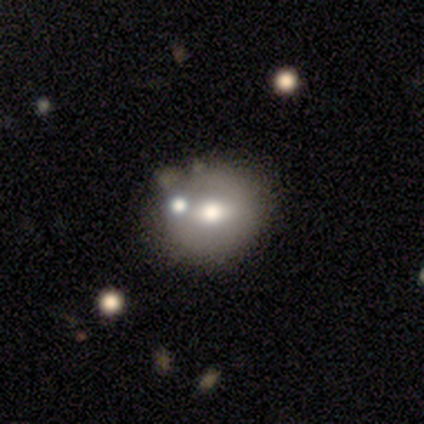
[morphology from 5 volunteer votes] Q: Smooth or featured?
A: featured or disk (60%); runner-up: smooth (40%)
Q: Edge-on disk?
A: no (100%)
Q: Bar?
A: weak (67%); runner-up: no (33%)
Q: Spiral arms?
A: no (100%)
Q: Bulge size?
A: moderate (67%); runner-up: none (33%)
Q: Merging?
A: minor disturbance (60%); runner-up: none (40%)